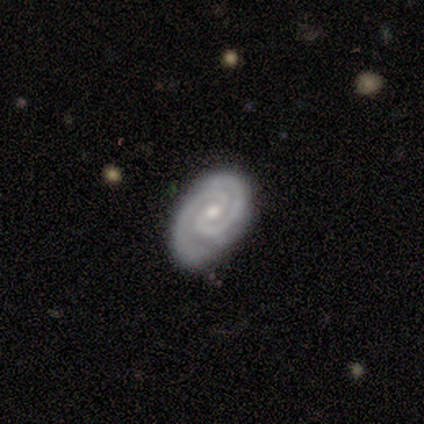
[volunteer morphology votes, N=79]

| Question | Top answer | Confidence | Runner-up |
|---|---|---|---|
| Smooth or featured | featured or disk | 94% | smooth (5%) |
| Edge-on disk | no | 97% | yes (3%) |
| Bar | no | 50% | weak (36%) |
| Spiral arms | yes | 100% | — |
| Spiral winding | tight | 76% | medium (22%) |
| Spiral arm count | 2 | 90% | 3 (4%) |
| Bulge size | small | 56% | moderate (44%) |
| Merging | none | 51% | minor disturbance (6%) |